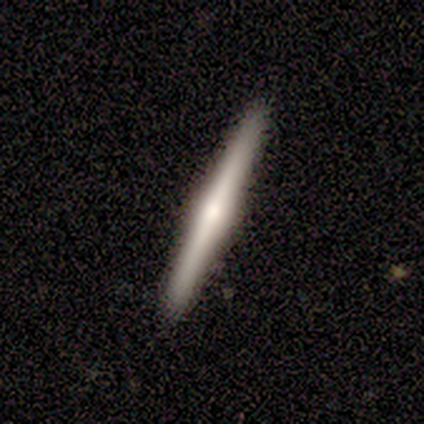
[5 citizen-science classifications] Overall: smooth (60%; featured or disk 40%). How rounded: cigar-shaped (100%). Merging: none (80%).